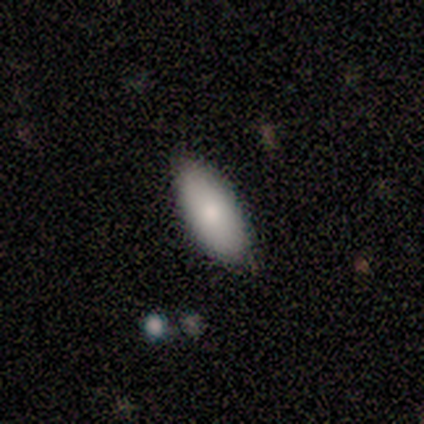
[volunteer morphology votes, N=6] Q: Smooth or featured?
A: smooth (83%); runner-up: star or artifact (17%)
Q: How rounded?
A: in between (80%); runner-up: cigar-shaped (20%)
Q: Merging?
A: none (100%)